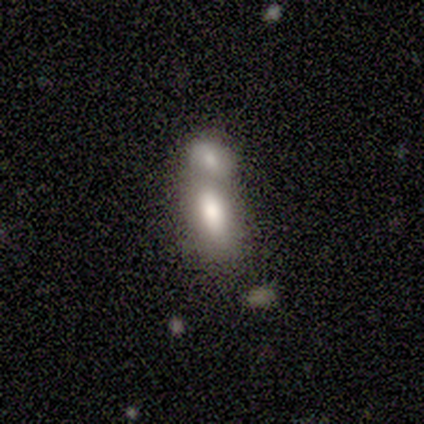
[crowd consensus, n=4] Smooth or featured?
  - smooth: 100% *
  - featured or disk: 0%
  - star or artifact: 0%
How rounded?
  - in between: 50% *
  - round: 25%
  - cigar-shaped: 25%
Merging?
  - merger: 100% *
  - none: 0%
  - minor disturbance: 0%
  - major disturbance: 0%